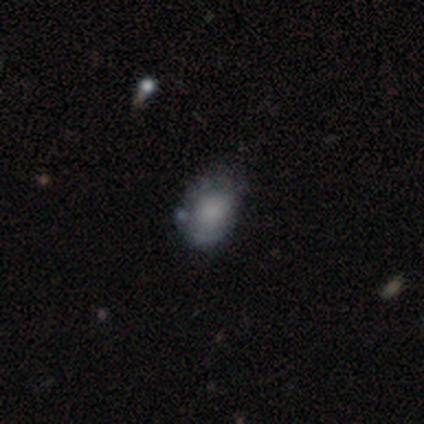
smooth-or-featured: smooth: 80% | featured or disk: 20% | star or artifact: 0%
  how-rounded: in between: 75% | round: 25% | cigar-shaped: 0%
  merging: none: 80% | minor disturbance: 20% | major disturbance: 0% | merger: 0%